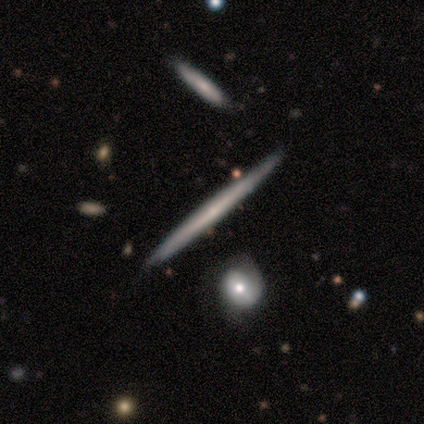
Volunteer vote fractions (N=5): A smooth galaxy with no disk features (100%) that is cigar-shaped (100%).

Vote fractions:
- Smooth or featured? smooth: 100% / featured or disk: 0% / star or artifact: 0%
- How rounded? cigar-shaped: 100% / round: 0% / in between: 0%
- Merging? none: 100% / minor disturbance: 0% / major disturbance: 0% / merger: 0%